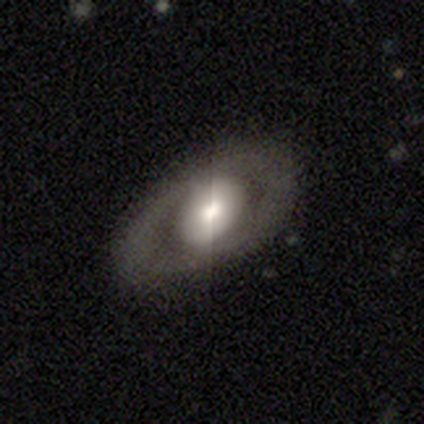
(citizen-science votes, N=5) Smooth or featured: featured or disk — 60% (smooth — 40%)
Edge-on disk: no — 100%
Bar: no — 67% (weak — 33%)
Spiral arms: no — 100%
Bulge size: moderate — 67% (small — 33%)
Merging: none — 80% (major disturbance — 20%)